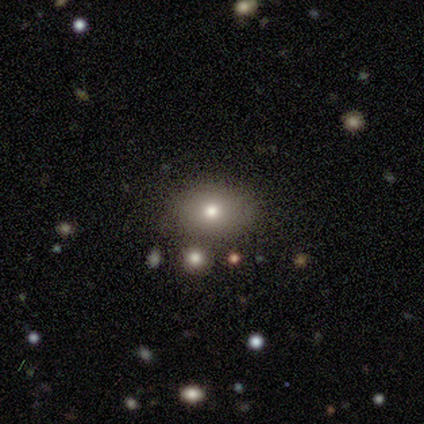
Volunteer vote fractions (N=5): This appears to be a smooth galaxy with no disk features (100%) that is round (40%, tied with in between). Merging: none (60%).